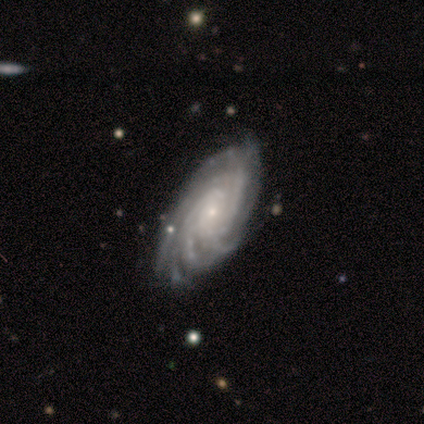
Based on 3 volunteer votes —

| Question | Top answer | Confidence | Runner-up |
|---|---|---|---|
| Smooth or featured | featured or disk | 67% | smooth (33%) |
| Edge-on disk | no | 100% | — |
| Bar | weak | 50% | tied: no (50%) |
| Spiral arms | yes | 50% | tied: no (50%) |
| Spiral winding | tight | 100% | — |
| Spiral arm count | more than 4 | 100% | — |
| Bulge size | small | 100% | — |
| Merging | minor disturbance | 67% | none (33%) |